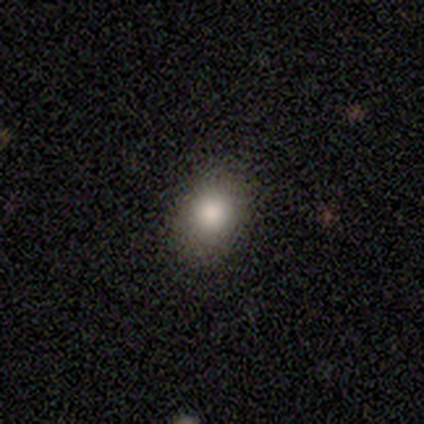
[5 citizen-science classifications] smooth_or_featured: smooth (p=1.00)
how_rounded: in between (p=0.60) [alt: round p=0.40]
merging: none (p=1.00)